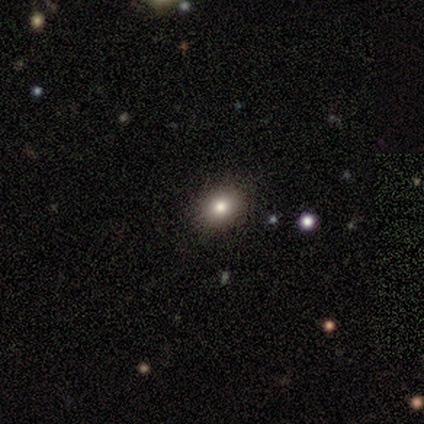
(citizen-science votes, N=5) Q: Smooth or featured?
A: smooth (80%); runner-up: featured or disk (20%)
Q: How rounded?
A: round (50%); tied with: in between (50%)
Q: Merging?
A: none (100%)